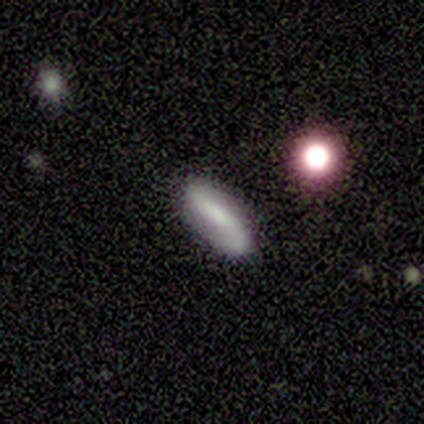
Overall: smooth (60%; featured or disk 20%). How rounded: cigar-shaped (67%; in between 33%). Merging: none (50%, tied with minor disturbance).